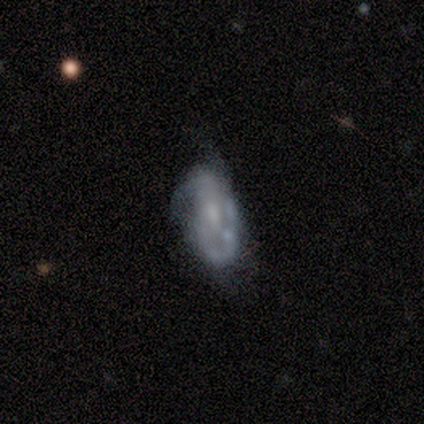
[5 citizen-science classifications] Overall: smooth (60%; featured or disk 20%). How rounded: in between (100%). Merging: none (50%, tied with minor disturbance).